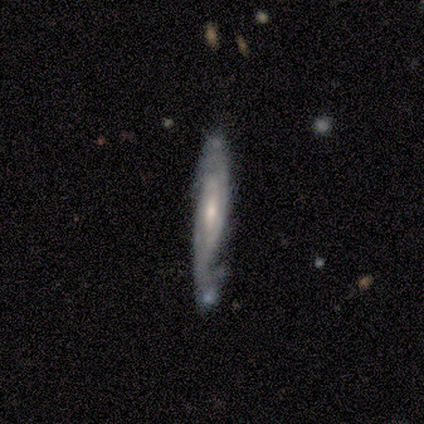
This appears to be a featured or disk galaxy (80%) with a strong bar (33%, tied with weak and no), medium (50%, tied with loose) spiral arms (67%) and a moderate central bulge (100%). Merging: none (40%, tied with minor disturbance).